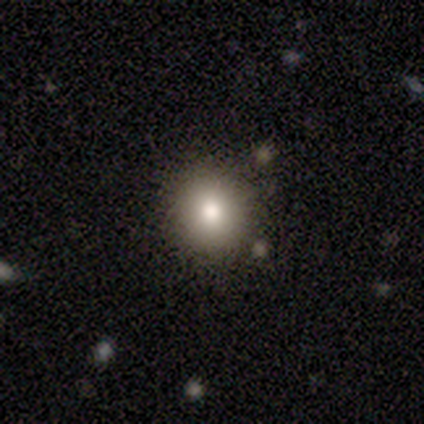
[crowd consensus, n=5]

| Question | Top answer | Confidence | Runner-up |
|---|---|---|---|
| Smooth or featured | smooth | 80% | star or artifact (20%) |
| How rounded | round | 100% | — |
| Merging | none | 100% | — |